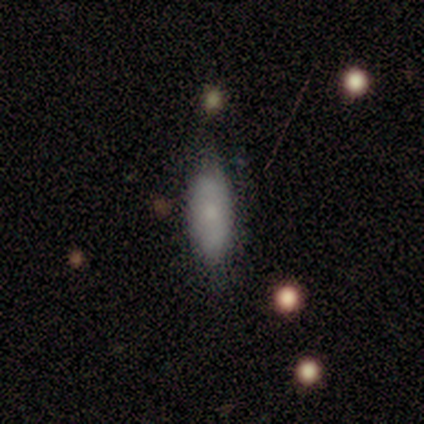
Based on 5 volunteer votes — Smooth or featured? 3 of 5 (60%) said smooth. How rounded? 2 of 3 (67%) said cigar-shaped. Merging? 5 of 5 (100%) said none.